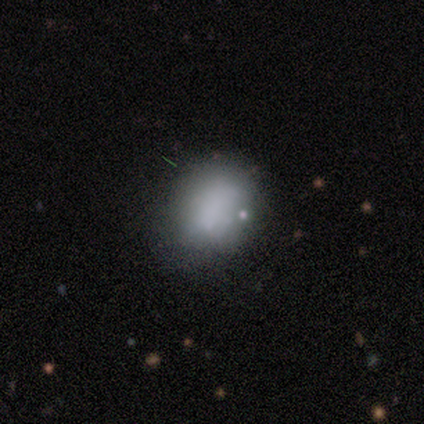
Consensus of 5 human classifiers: Smooth or featured? smooth (100%)
How rounded? in between (60%)
Merging? none (100%)